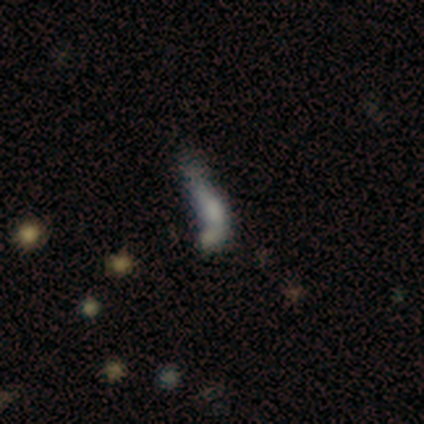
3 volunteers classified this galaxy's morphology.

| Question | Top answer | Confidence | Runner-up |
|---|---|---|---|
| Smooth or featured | smooth | 100% | — |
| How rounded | cigar-shaped | 67% | in between (33%) |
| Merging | none | 33% | tied: major disturbance (33%), merger (33%) |